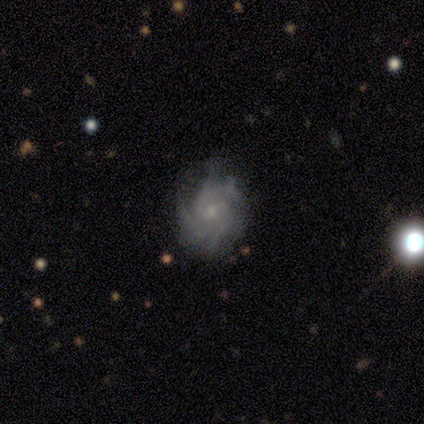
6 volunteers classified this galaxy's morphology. This appears to be a featured or disk galaxy (100%) with no bar (50%), 3 (50%) medium (50%) spiral arms (100%) and a small central bulge (83%). Merging: none (83%).